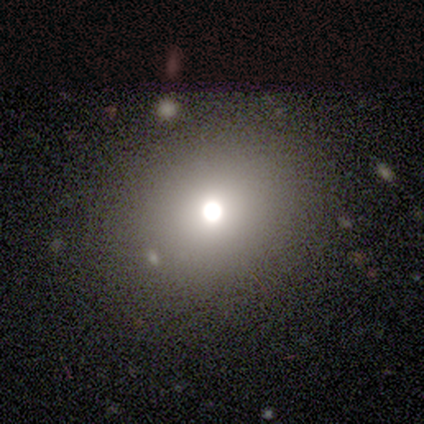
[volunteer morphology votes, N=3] Smooth or featured: smooth — 67% (star or artifact — 33%)
How rounded: round — 50% (tied with in between — 50%)
Merging: none — 100%